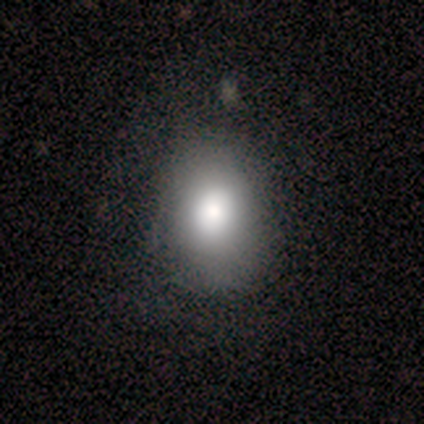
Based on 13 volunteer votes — Volunteers were most divided on "merging": none: 58%, minor disturbance: 33%, major disturbance: 8%, merger: 0%. More confident: smooth or featured — smooth (69%); how rounded — in between (67%).